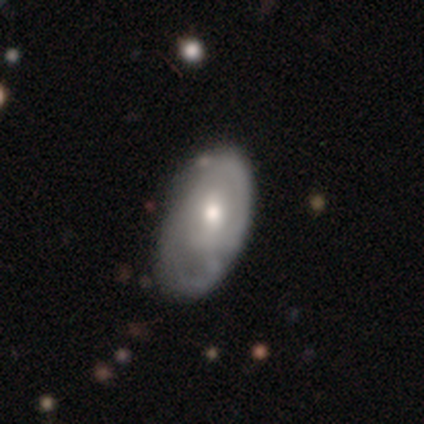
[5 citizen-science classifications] A smooth galaxy with no disk features (60%) that is in between round and cigar-shaped (100%). Merging: none (60%).